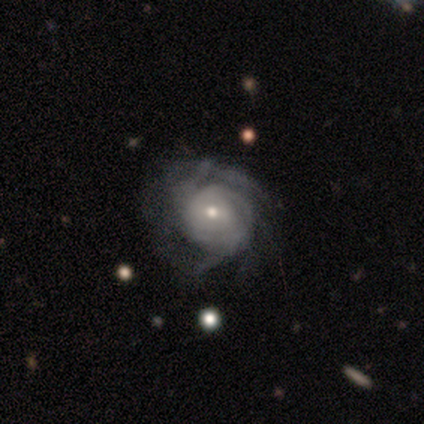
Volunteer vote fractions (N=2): This appears to be a featured or disk galaxy (100%) with a weak bar (50%, tied with no), 3 (50%, tied with can't tell) tight (100%) spiral arms (100%) and a small central bulge (100%). Merging: none (50%, tied with major disturbance).